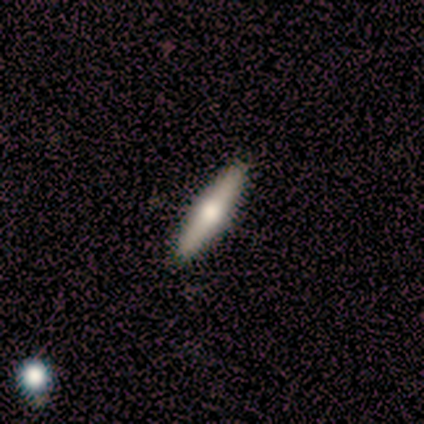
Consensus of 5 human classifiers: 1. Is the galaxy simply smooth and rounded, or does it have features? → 100% smooth, 0% featured or disk, 0% star or artifact.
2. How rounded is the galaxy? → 100% cigar-shaped, 0% round, 0% in between.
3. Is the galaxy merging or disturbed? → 100% none, 0% minor disturbance, 0% major disturbance, 0% merger.